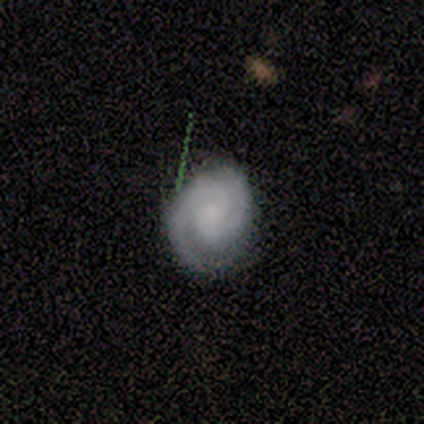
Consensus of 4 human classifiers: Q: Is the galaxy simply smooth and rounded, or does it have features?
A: featured or disk — 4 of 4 (100%).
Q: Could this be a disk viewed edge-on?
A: no — 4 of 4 (100%).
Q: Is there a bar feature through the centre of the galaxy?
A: no — 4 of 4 (100%).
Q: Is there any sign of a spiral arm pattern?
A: yes — 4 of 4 (100%).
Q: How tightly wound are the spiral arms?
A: tight — 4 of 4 (100%).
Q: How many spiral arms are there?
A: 2 — 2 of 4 (50%).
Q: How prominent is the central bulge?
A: small — 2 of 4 (50%, tied with none).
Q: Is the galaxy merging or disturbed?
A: minor disturbance — 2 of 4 (50%).